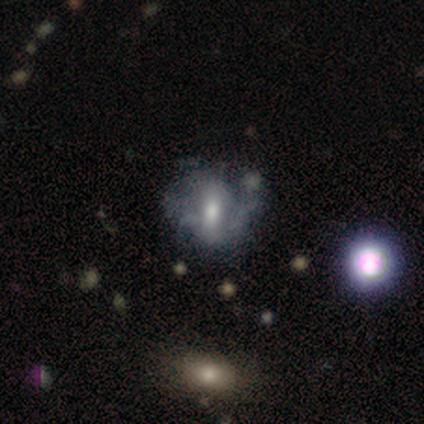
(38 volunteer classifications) A featured or disk galaxy (50%) with a weak bar (42%), no spiral arms (58%) and a moderate central bulge (74%).

Vote fractions:
- Smooth or featured? featured or disk: 50% / smooth: 26% / star or artifact: 24%
- Edge-on disk? no: 100% / yes: 0%
- Bar? weak: 42% / no: 37% / strong: 21%
- Spiral arms? no: 58% / yes: 42%
- Bulge size? moderate: 74% / small: 11% / dominant: 5% / large: 5% / none: 5%
- Merging? none: 34% / minor disturbance: 31% / major disturbance: 31% / merger: 3%